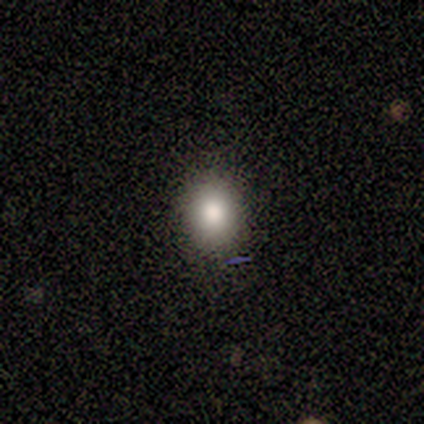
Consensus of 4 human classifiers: Smooth or featured: smooth — 50% (tied with star or artifact — 50%)
How rounded: round — 100%
Merging: none — 100%